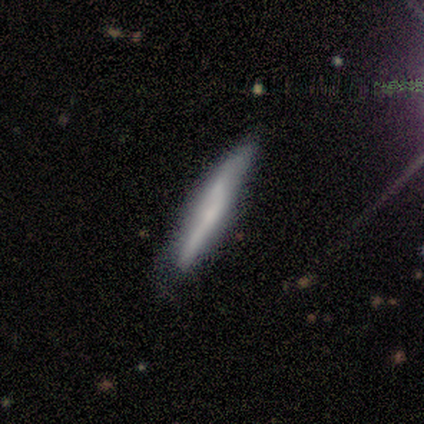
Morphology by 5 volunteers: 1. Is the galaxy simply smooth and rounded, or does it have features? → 60% smooth, 40% featured or disk, 0% star or artifact.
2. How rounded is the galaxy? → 100% cigar-shaped, 0% round, 0% in between.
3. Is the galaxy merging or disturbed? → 80% none, 20% minor disturbance, 0% major disturbance, 0% merger.